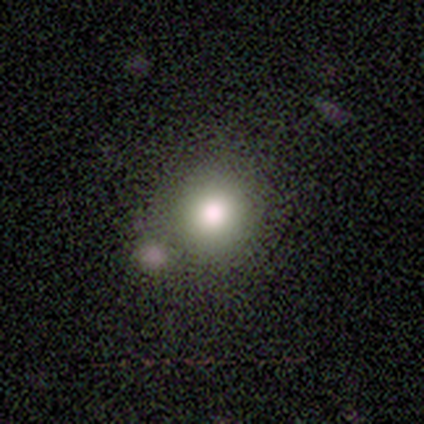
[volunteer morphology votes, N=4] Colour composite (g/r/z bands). It shows a smooth galaxy with no disk features (50%, tied with star or artifact) that is round (100%). Merging: none (50%, tied with merger).